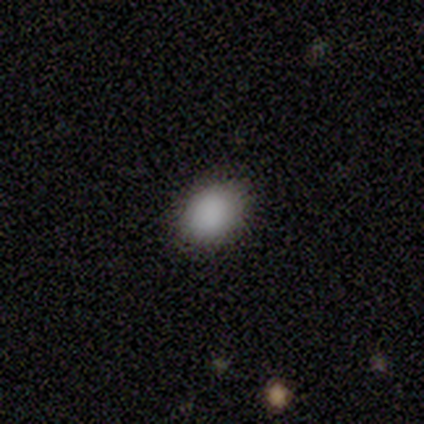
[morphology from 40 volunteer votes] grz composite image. It shows a smooth galaxy with no disk features (90%) that is in between round and cigar-shaped (69%). Merging: none (92%).